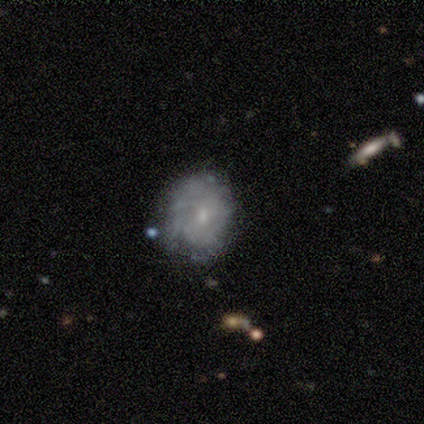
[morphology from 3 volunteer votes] Smooth or featured? featured or disk (67%)
Edge-on disk? no (100%)
Bar? no (100%)
Spiral arms? yes (50%, tied with no)
Spiral winding? tight (100%)
Spiral arm count? can't tell (100%)
Bulge size? small (100%)
Merging? none (67%)